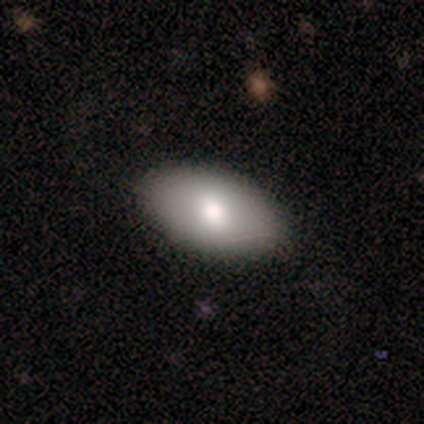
This is clearly a smooth galaxy (88%). How rounded: clearly in between (100%). Merging: clearly none (88%).